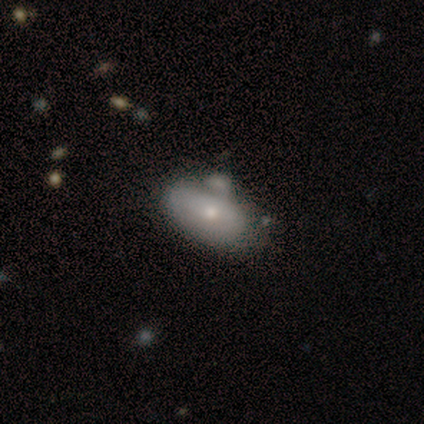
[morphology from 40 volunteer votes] smooth-or-featured: smooth: 68% | featured or disk: 32% | star or artifact: 0%
  how-rounded: in between: 89% | round: 7% | cigar-shaped: 4%
  merging: none: 35% | minor disturbance: 30% | merger: 20% | major disturbance: 10%